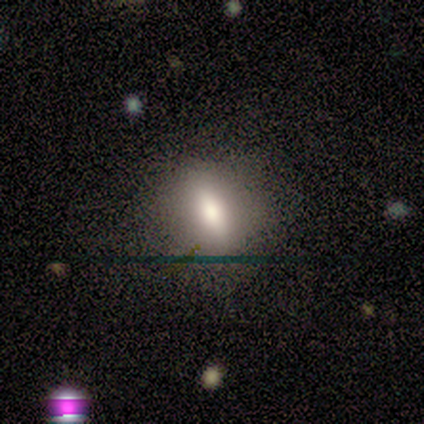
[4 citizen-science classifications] A smooth galaxy with no disk features (75%) that is in between round and cigar-shaped (67%).

Vote fractions:
- Smooth or featured? smooth: 75% / featured or disk: 25% / star or artifact: 0%
- How rounded? in between: 67% / round: 33% / cigar-shaped: 0%
- Merging? none: 100% / minor disturbance: 0% / major disturbance: 0% / merger: 0%